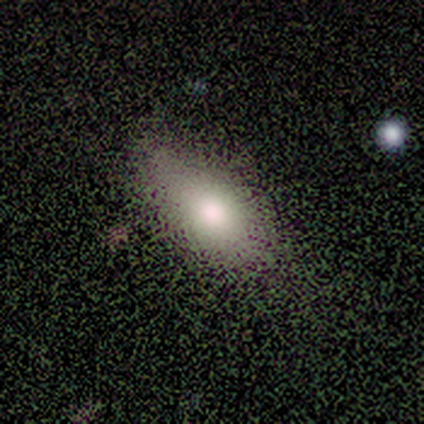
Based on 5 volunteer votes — Smooth or featured? 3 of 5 (60%) said smooth. How rounded? 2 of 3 (67%) said in between. Merging? 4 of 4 (100%) said none.